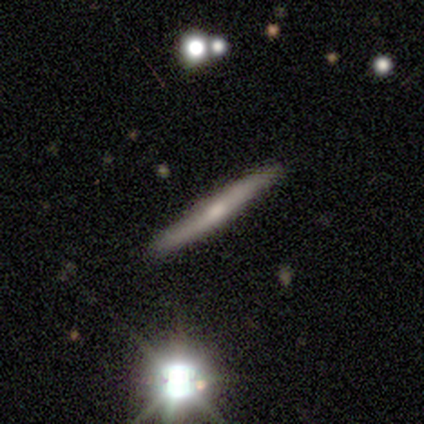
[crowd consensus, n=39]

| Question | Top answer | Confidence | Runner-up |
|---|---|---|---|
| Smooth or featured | featured or disk | 72% | smooth (23%) |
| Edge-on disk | yes | 100% | — |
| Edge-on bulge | rounded | 50% | none (39%) |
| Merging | none | 51% | minor disturbance (3%) |